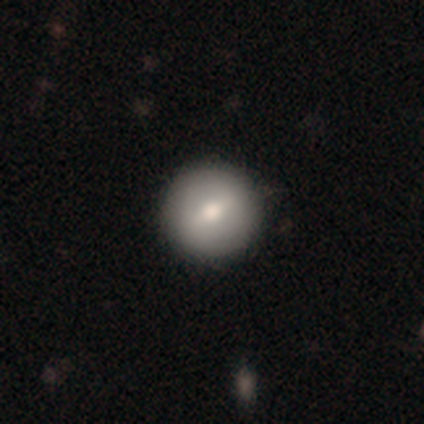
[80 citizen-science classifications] A smooth galaxy with no disk features (60%) that is round (98%). Merging: none (44%).